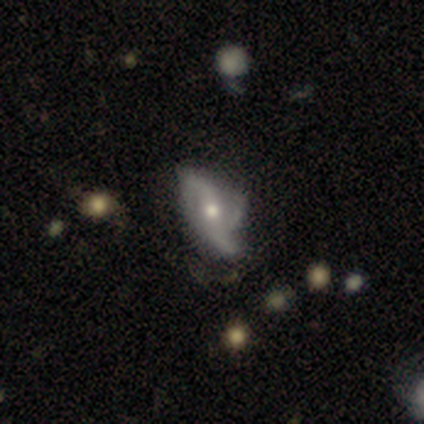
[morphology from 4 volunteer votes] A featured or disk galaxy (75%) with a weak bar (67%), 2 (67%) loose (67%) spiral arms (100%) and a moderate central bulge (100%). Merging: major disturbance (50%).